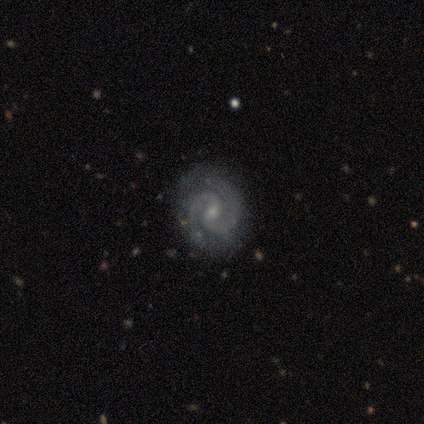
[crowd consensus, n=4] Smooth or featured? 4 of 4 (100%) said featured or disk. Edge-on disk? 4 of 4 (100%) said no. Bar? 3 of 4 (75%) said weak. Spiral arms? 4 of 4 (100%) said yes. Spiral winding? 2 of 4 (50%, tied with medium) said tight. Spiral arm count? 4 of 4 (100%) said 2. Bulge size? 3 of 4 (75%) said moderate. Merging? 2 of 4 (50%, tied with minor disturbance) said none.